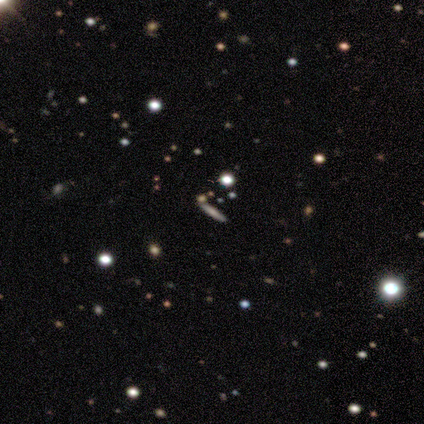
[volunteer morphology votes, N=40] smooth-or-featured: smooth: 38% | featured or disk: 35% | star or artifact: 28%
  how-rounded: cigar-shaped: 73% | round: 13% | in between: 13%
  merging: none: 90% | merger: 7% | minor disturbance: 3% | major disturbance: 0%